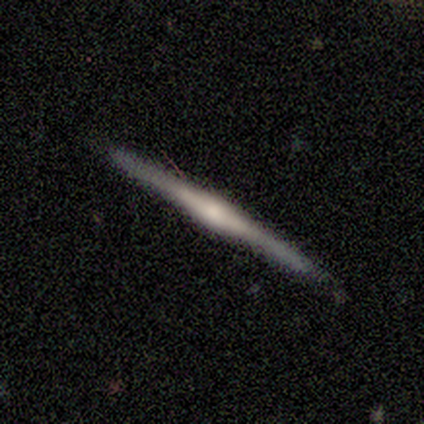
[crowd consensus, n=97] This is clearly a featured or disk galaxy (82%). It is clearly viewed edge-on (98%). Edge-on bulge: likely rounded (73%). Merging: clearly none (88%).